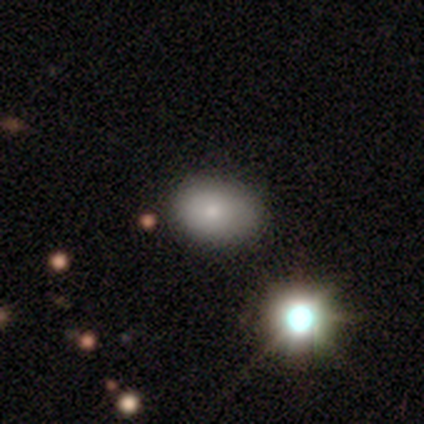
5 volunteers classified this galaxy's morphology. Smooth or featured? smooth (40%, tied with featured or disk)
How rounded? in between (100%)
Merging? none (100%)